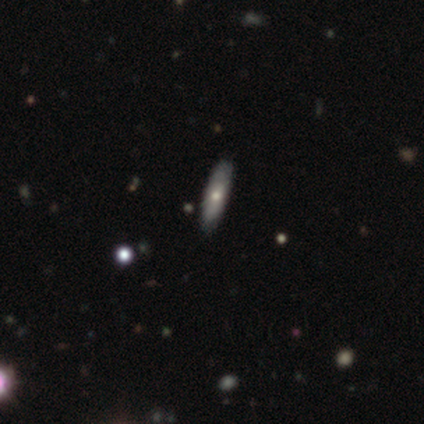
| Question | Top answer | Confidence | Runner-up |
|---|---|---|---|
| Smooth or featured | smooth | 75% | featured or disk (25%) |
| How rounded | in between | 67% | cigar-shaped (33%) |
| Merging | none | 50% | minor disturbance (25%) |